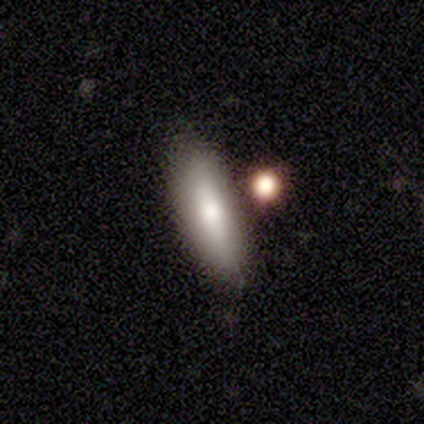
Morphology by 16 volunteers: Smooth or featured? smooth (62%)
How rounded? in between (80%)
Merging? none (75%)